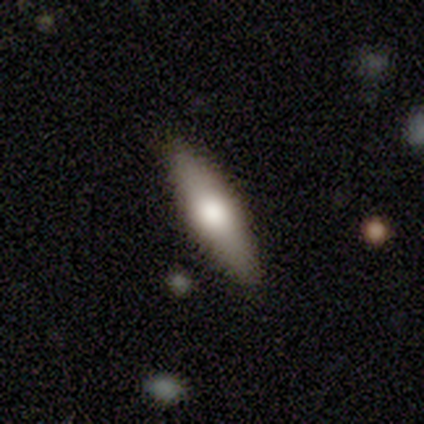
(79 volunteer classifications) Morphology: type=smooth (59%); roundness=cigar-shaped (53%); merging=none (47%).